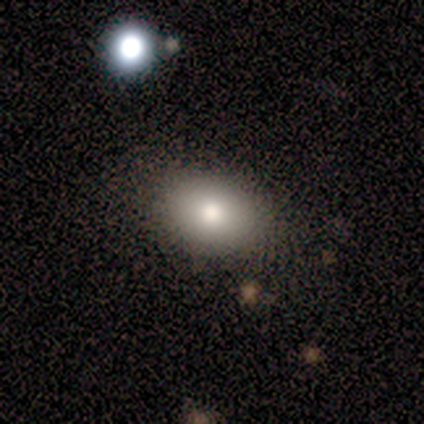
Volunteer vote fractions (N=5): A smooth galaxy with no disk features (80%) that is in between round and cigar-shaped (75%).

Vote fractions:
- Smooth or featured? smooth: 80% / star or artifact: 20% / featured or disk: 0%
- How rounded? in between: 75% / round: 25% / cigar-shaped: 0%
- Merging? none: 100% / minor disturbance: 0% / major disturbance: 0% / merger: 0%